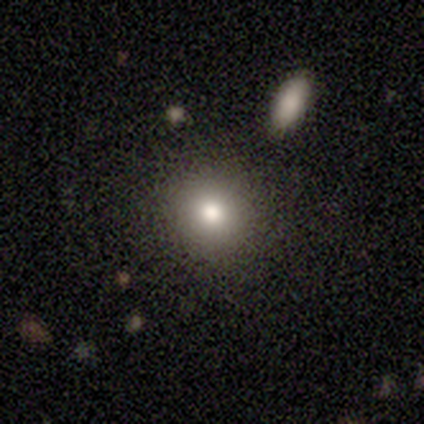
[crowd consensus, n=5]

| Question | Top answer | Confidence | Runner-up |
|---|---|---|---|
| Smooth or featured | smooth | 100% | — |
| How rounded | round | 100% | — |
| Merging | none | 100% | — |